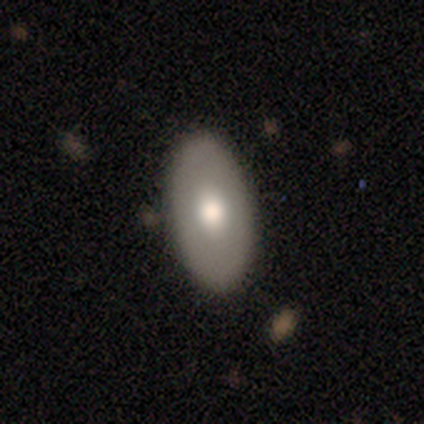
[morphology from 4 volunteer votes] This is likely a featured or disk galaxy (75%). It is clearly not viewed edge-on (100%). Bar: clearly no (100%). Spiral arm pattern: clearly no (100%). Central bulge: likely large (67%). Merging: clearly none (100%).